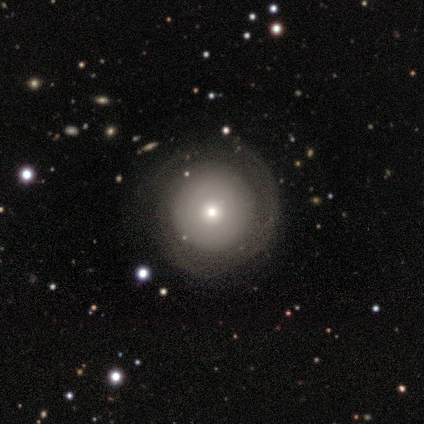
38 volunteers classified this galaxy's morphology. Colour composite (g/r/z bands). It shows a smooth galaxy with no disk features (53%) that is round (100%). Merging: none (64%).